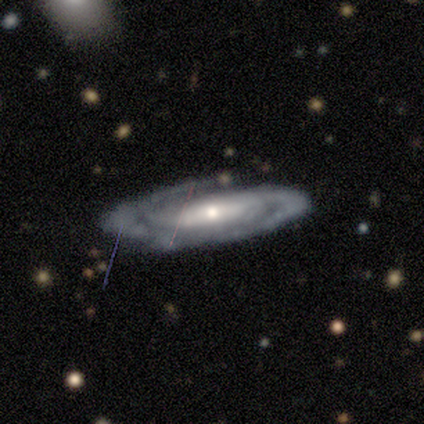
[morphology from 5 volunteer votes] type=featured or disk (100%); edge-on=no (100%); bar=strong (40%, tied with weak); spiral arms=yes (100%); winding=medium (60%); arm count=2 (40%, tied with can't tell); bulge=small (100%); merging=none (80%).